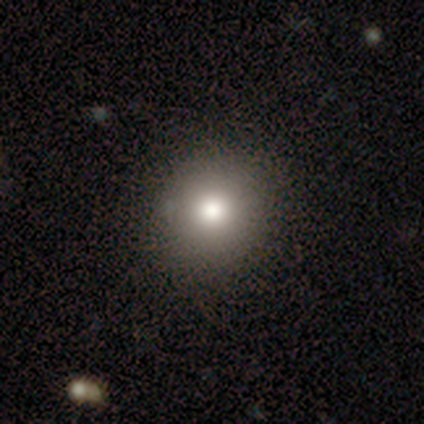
smooth 100%, featured or disk 0%, star or artifact 0%. Down the decision tree: how rounded — round (50%, tied with in between); merging — none (75%).